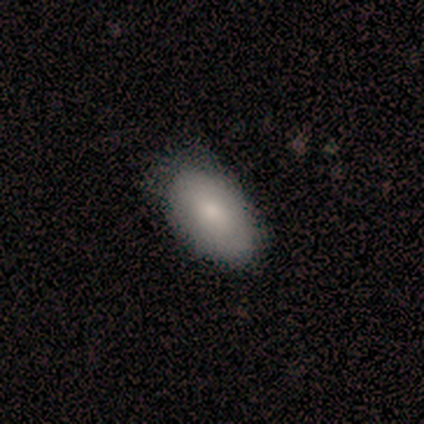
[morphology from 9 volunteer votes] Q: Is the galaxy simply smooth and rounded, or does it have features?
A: smooth — 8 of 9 (89%).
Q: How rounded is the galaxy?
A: in between — 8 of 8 (100%).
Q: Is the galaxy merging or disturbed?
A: none — 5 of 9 (56%).